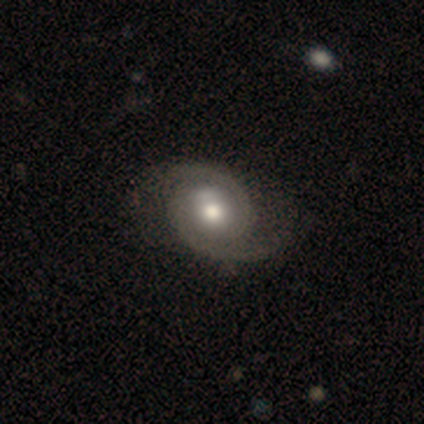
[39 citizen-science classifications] Smooth or featured?
  - featured or disk: 87% *
  - smooth: 13%
  - star or artifact: 0%
Edge-on disk?
  - no: 100% *
  - yes: 0%
Bar?
  - no: 85% *
  - weak: 12%
  - strong: 3%
Spiral arms?
  - yes: 100% *
  - no: 0%
Spiral winding?
  - medium: 53% *
  - tight: 35%
  - loose: 12%
Spiral arm count?
  - 2: 94% *
  - can't tell: 6%
  - 1: 0%
  - 3: 0%
  - 4: 0%
  - more than 4: 0%
Bulge size?
  - moderate: 79% *
  - large: 15%
  - small: 6%
  - dominant: 0%
  - none: 0%
Merging?
  - none: 46% *
  - minor disturbance: 10%
  - merger: 5%
  - major disturbance: 0%